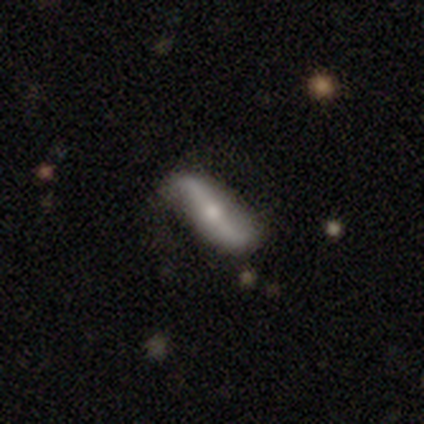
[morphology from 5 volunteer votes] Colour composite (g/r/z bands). It shows a featured or disk galaxy (80%) viewed edge-on (50%, tied with no) with a rounded central bulge (100%). Merging: none (80%).